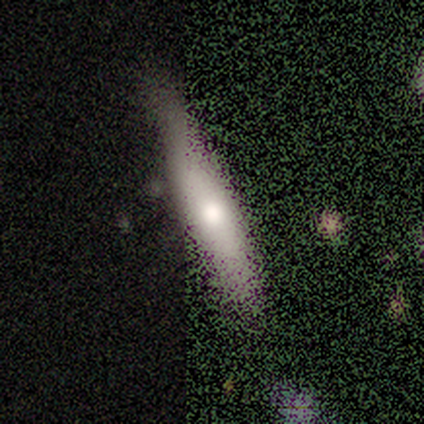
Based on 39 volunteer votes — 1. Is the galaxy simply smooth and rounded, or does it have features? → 69% smooth, 21% featured or disk, 10% star or artifact.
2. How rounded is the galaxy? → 85% cigar-shaped, 15% in between, 0% round.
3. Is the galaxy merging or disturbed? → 77% none, 11% minor disturbance, 9% major disturbance, 3% merger.